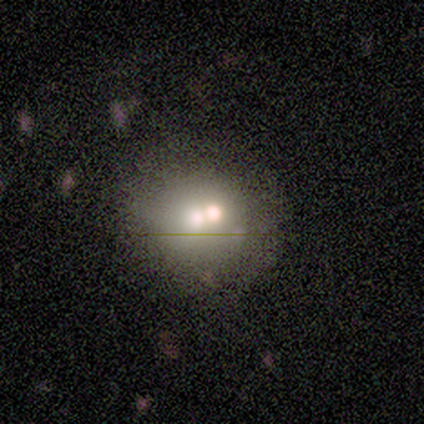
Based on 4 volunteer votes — Volunteers were most divided on "smooth or featured": smooth: 75%, featured or disk: 25%, star or artifact: 0%. More confident: how rounded — round (100%); merging — none (100%).